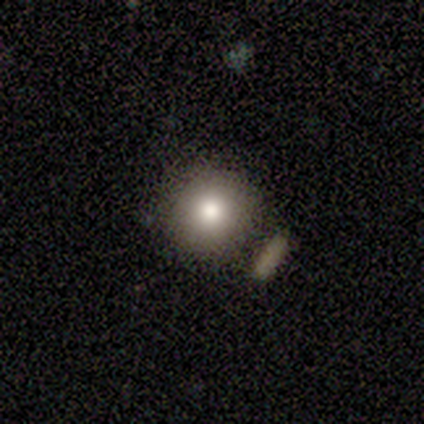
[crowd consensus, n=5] smooth 100%, featured or disk 0%, star or artifact 0%. Down the decision tree: how rounded — round (80%); merging — none (80%).